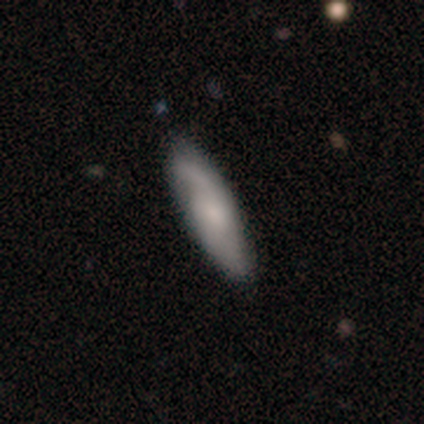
Overall: featured or disk (61%; smooth 34%). Edge-on disk: no (78%). Bar: no (67%; weak 33%). Spiral arms: yes (94%). Spiral arm count: 2 (47%; can't tell 35%). Spiral winding: loose (47%; medium 41%). Bulge size: moderate (44%; small 39%). Merging: none (44%; minor disturbance 6%).